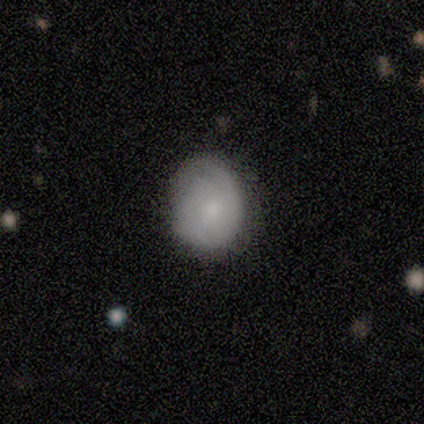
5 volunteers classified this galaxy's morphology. This is clearly a smooth galaxy (80%). How rounded: likely round (75%). Merging: likely none (60%).